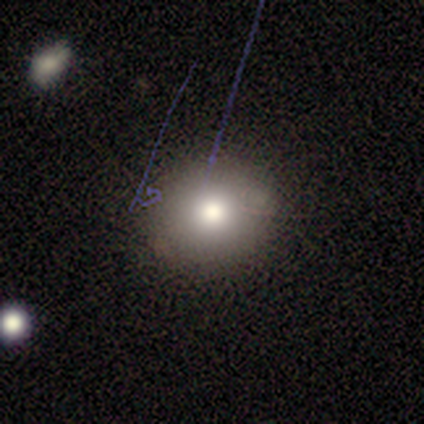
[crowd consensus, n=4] This is clearly a smooth galaxy (100%). How rounded: likely round (75%). Merging: clearly none (100%).